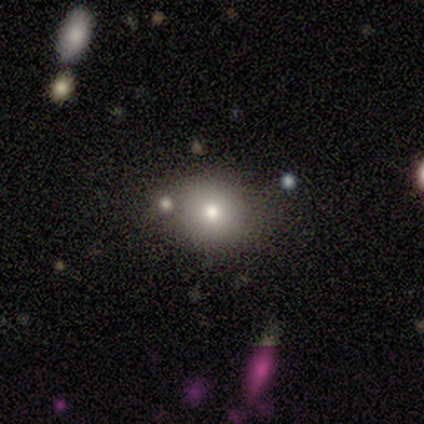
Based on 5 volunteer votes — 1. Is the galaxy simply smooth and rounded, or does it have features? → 80% smooth, 20% featured or disk, 0% star or artifact.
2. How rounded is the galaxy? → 75% round, 25% in between, 0% cigar-shaped.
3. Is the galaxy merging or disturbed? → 80% none, 20% merger, 0% minor disturbance, 0% major disturbance.